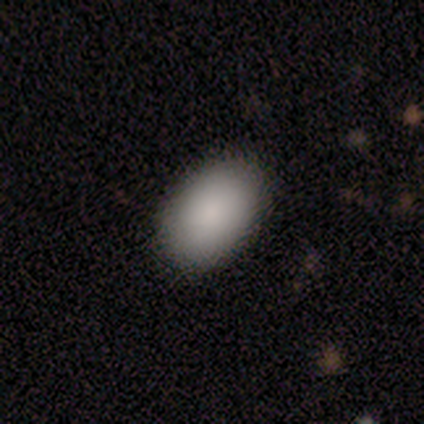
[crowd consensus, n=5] A smooth galaxy with no disk features (100%) that is in between round and cigar-shaped (100%).

Vote fractions:
- Smooth or featured? smooth: 100% / featured or disk: 0% / star or artifact: 0%
- How rounded? in between: 100% / round: 0% / cigar-shaped: 0%
- Merging? none: 100% / minor disturbance: 0% / major disturbance: 0% / merger: 0%